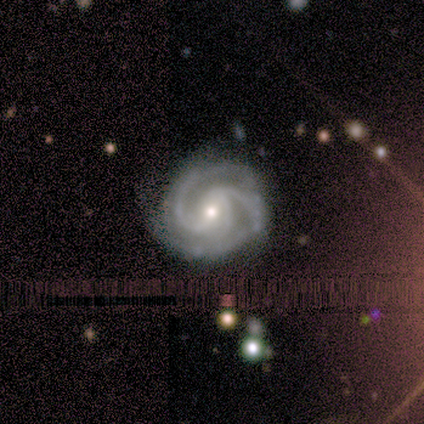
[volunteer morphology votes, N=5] smooth_or_featured: featured or disk (p=1.00)
disk_edge_on: no (p=1.00)
bar: weak (p=0.60) [alt: strong p=0.40]
has_spiral_arms: yes (p=1.00)
spiral_winding: medium (p=0.60) [alt: tight p=0.40]
spiral_arm_count: 2 (p=0.60) [alt: 3 p=0.20]
bulge_size: moderate (p=0.60) [alt: small p=0.40]
merging: none (p=0.60) [alt: minor disturbance p=0.20]